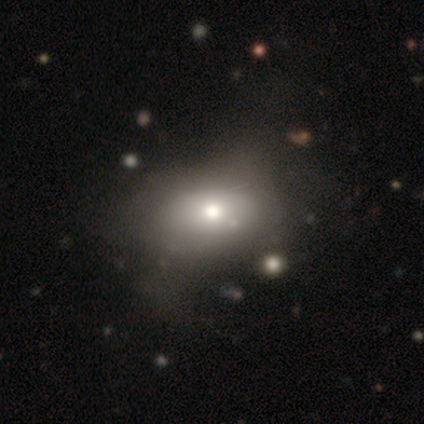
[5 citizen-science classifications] This appears to be a smooth galaxy with no disk features (60%) that is in between round and cigar-shaped (100%). Merging: major disturbance (60%).